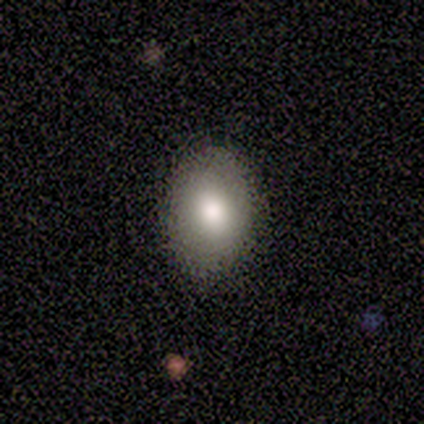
This appears to be a smooth galaxy with no disk features (100%) that is in between round and cigar-shaped (100%). Merging: none (100%).